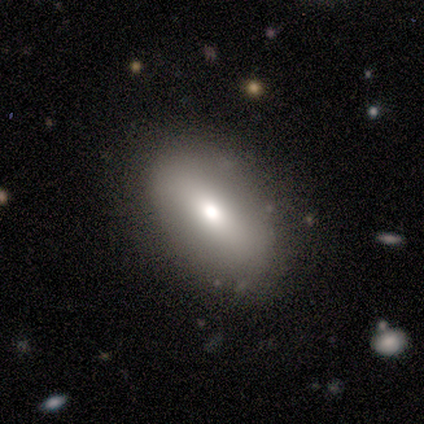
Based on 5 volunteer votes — smooth 100%, featured or disk 0%, star or artifact 0%. Down the decision tree: how rounded — in between (100%); merging — none (60%).